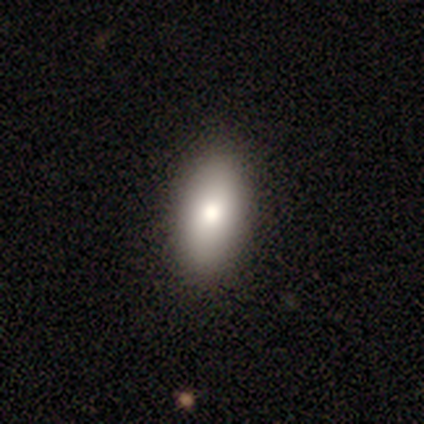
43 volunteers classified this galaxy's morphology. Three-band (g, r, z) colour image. It shows a smooth galaxy with no disk features (88%) that is in between round and cigar-shaped (89%). Merging: none (62%).